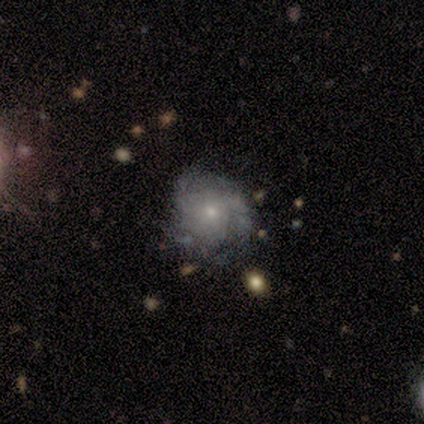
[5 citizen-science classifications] A featured or disk galaxy (100%) with no bar (100%), tight (50%, tied with medium) spiral arms (80%) and a small central bulge (60%).

Vote fractions:
- Smooth or featured? featured or disk: 100% / smooth: 0% / star or artifact: 0%
- Edge-on disk? no: 100% / yes: 0%
- Bar? no: 100% / strong: 0% / weak: 0%
- Spiral arms? yes: 80% / no: 20%
- Spiral winding? tight: 50% (tied) / medium: 50% (tied) / loose: 0%
- Spiral arm count? can't tell: 75% / 3: 25% / 1: 0% / 2: 0% / 4: 0% / more than 4: 0%
- Bulge size? small: 60% / none: 40% / dominant: 0% / large: 0% / moderate: 0%
- Merging? none: 80% / minor disturbance: 20% / major disturbance: 0% / merger: 0%